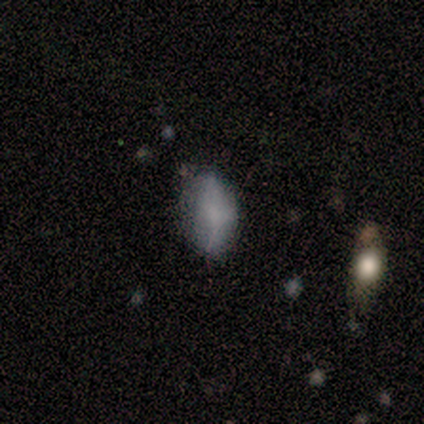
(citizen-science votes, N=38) Q: Smooth or featured?
A: smooth (68%); runner-up: featured or disk (24%)
Q: How rounded?
A: in between (92%); runner-up: cigar-shaped (8%)
Q: Merging?
A: none (66%); runner-up: minor disturbance (29%)